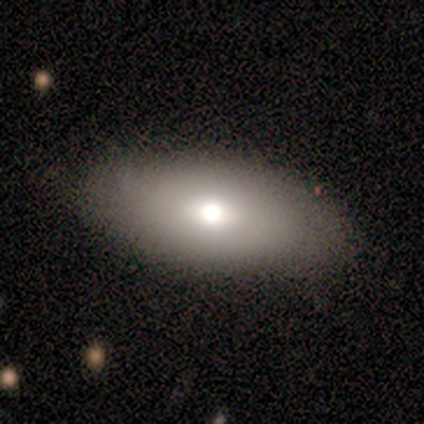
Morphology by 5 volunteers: Overall: smooth (60%; featured or disk 40%). How rounded: in between (100%). Merging: none (60%; minor disturbance 20%).